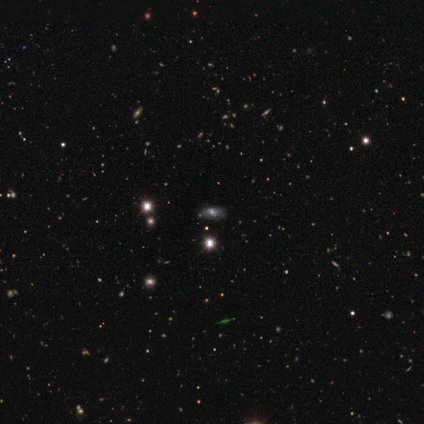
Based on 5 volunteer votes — smooth_or_featured: star or artifact (p=0.80) [alt: featured or disk p=0.20]